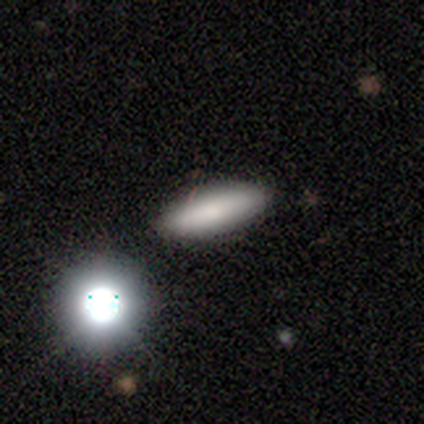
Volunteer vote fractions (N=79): Overall: smooth (78%). How rounded: in between (52%; cigar-shaped 42%). Merging: none (40%; minor disturbance 9%).